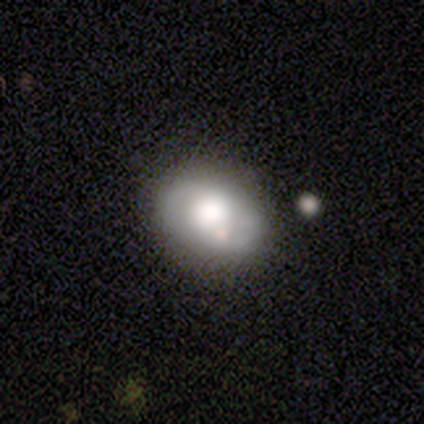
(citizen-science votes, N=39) Smooth or featured? smooth (64%)
How rounded? in between (60%)
Merging? none (78%)